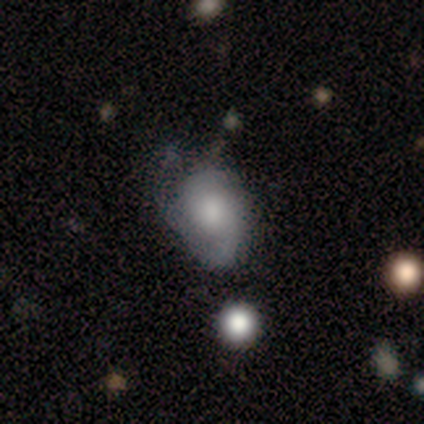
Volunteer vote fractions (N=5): Q: Smooth or featured?
A: smooth (40%); tied with: featured or disk (40%)
Q: How rounded?
A: in between (100%)
Q: Merging?
A: minor disturbance (50%); runner-up: none (25%)